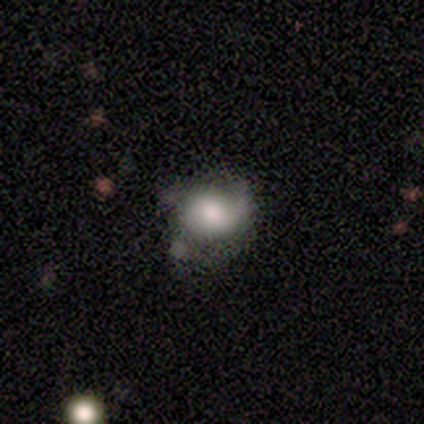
Q: Smooth or featured?
A: smooth (79%); runner-up: featured or disk (18%)
Q: How rounded?
A: in between (55%); runner-up: round (45%)
Q: Merging?
A: none (53%); runner-up: minor disturbance (29%)